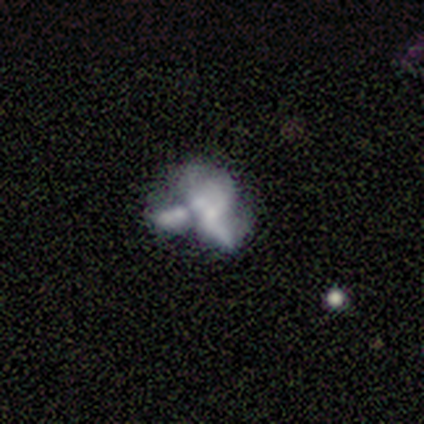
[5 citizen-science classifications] Smooth or featured?
  - smooth: 60% *
  - featured or disk: 40%
  - star or artifact: 0%
How rounded?
  - in between: 100% *
  - round: 0%
  - cigar-shaped: 0%
Merging?
  - merger: 60% *
  - none: 40%
  - minor disturbance: 0%
  - major disturbance: 0%